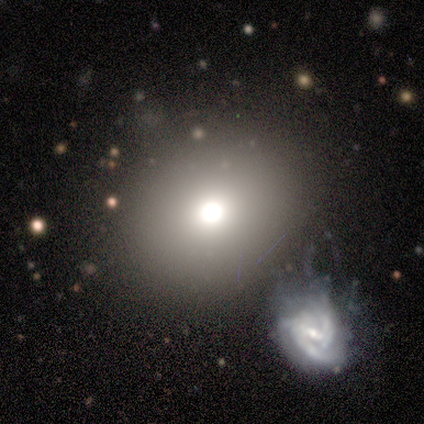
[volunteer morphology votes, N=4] Smooth or featured? smooth (100%)
How rounded? round (50%, tied with in between)
Merging? none (100%)